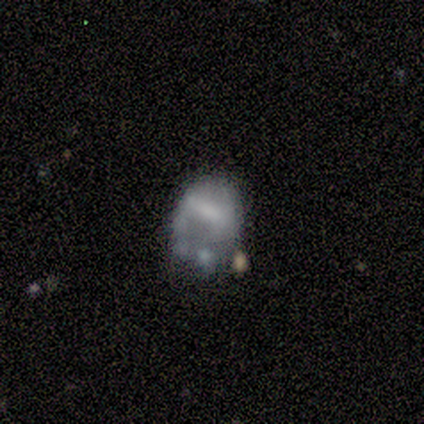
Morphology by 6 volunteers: This appears to be a smooth galaxy with no disk features (50%) that is in between round and cigar-shaped (67%). Merging: minor disturbance (40%).